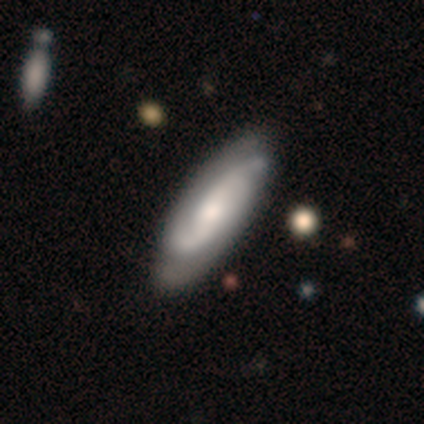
Smooth or featured? 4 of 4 (100%) said featured or disk. Edge-on disk? 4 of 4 (100%) said no. Bar? 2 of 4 (50%) said no. Spiral arms? 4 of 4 (100%) said yes. Spiral winding? 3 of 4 (75%) said medium. Spiral arm count? 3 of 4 (75%) said 2. Bulge size? 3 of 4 (75%) said moderate. Merging? 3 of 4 (75%) said none.